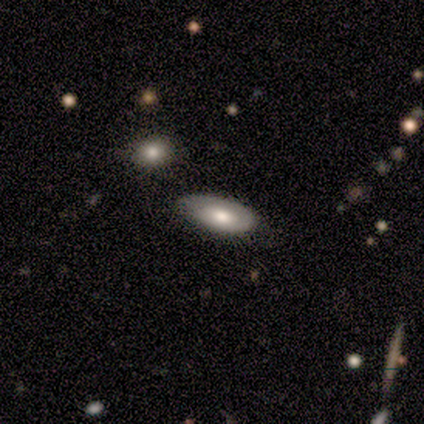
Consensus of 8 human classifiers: This is possibly a smooth galaxy (50%, tied with featured or disk). How rounded: likely in between (75%). Merging: clearly none (88%).